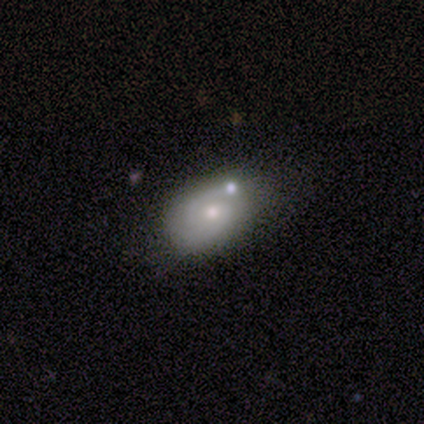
smooth_or_featured: smooth (p=0.50) [alt: featured or disk p=0.40]
how_rounded: in between (p=0.80) [alt: round p=0.20]
merging: none (p=0.67) [alt: minor disturbance p=0.22]